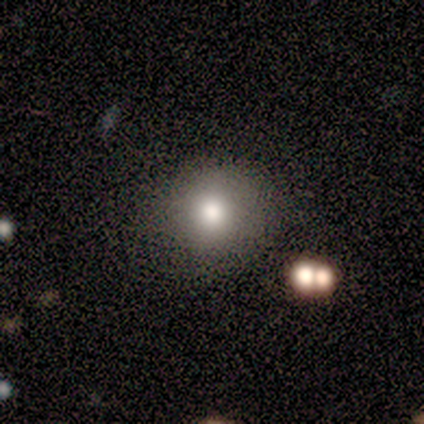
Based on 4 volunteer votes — This appears to be a smooth galaxy with no disk features (75%) that is in between round and cigar-shaped (67%). Merging: none (67%).